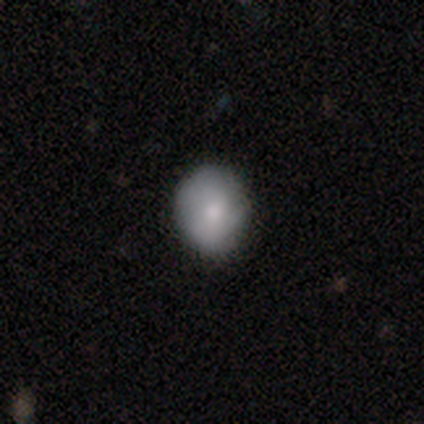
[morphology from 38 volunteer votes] Smooth or featured?
  - smooth: 87% *
  - featured or disk: 8%
  - star or artifact: 5%
How rounded?
  - round: 82% *
  - in between: 18%
  - cigar-shaped: 0%
Merging?
  - none: 83% *
  - minor disturbance: 17%
  - major disturbance: 0%
  - merger: 0%